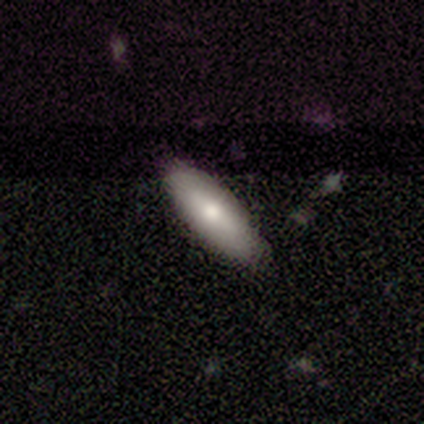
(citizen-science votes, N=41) Smooth or featured: smooth — 76% (featured or disk — 20%)
How rounded: in between — 68% (cigar-shaped — 32%)
Merging: none — 92% (major disturbance — 5%)